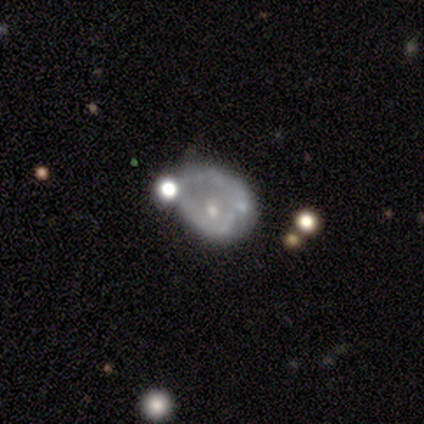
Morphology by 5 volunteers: Smooth or featured?
  - featured or disk: 60% *
  - smooth: 40%
  - star or artifact: 0%
Edge-on disk?
  - no: 100% *
  - yes: 0%
Bar?
  - no: 67% *
  - weak: 33%
  - strong: 0%
Spiral arms?
  - no: 67% *
  - yes: 33%
Bulge size?
  - small: 67% *
  - none: 33%
  - dominant: 0%
  - large: 0%
  - moderate: 0%
Merging?
  - none: 40% * (tied)
  - minor disturbance: 40% * (tied)
  - merger: 20%
  - major disturbance: 0%